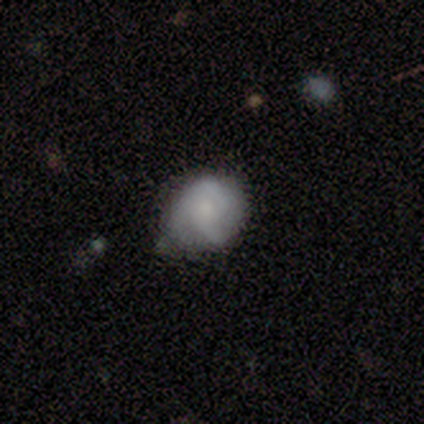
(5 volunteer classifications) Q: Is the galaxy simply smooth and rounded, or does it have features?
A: smooth — 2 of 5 (40%, tied with featured or disk).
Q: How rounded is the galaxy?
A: in between — 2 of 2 (100%).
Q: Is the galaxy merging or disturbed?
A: minor disturbance — 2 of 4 (50%).